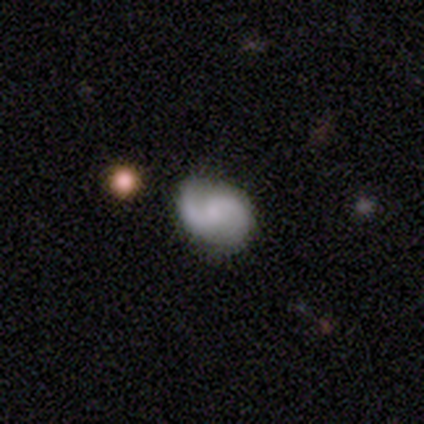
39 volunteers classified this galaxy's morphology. Q: Smooth or featured?
A: featured or disk (90%); runner-up: smooth (10%)
Q: Edge-on disk?
A: no (97%); runner-up: yes (3%)
Q: Bar?
A: no (47%); runner-up: weak (44%)
Q: Spiral arms?
A: yes (88%); runner-up: no (12%)
Q: Spiral winding?
A: medium (47%); runner-up: loose (40%)
Q: Spiral arm count?
A: 2 (90%); runner-up: 1 (7%)
Q: Bulge size?
A: none (41%); runner-up: small (35%)
Q: Merging?
A: none (85%); runner-up: minor disturbance (10%)